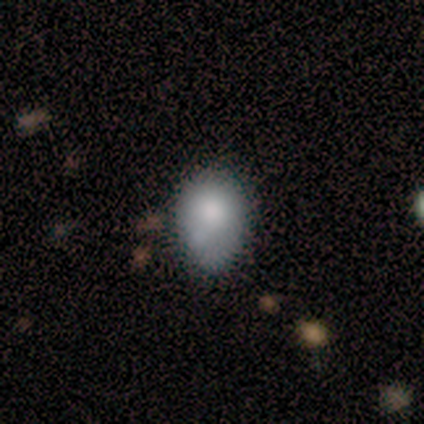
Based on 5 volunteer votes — Morphology: type=smooth (60%); roundness=in between (100%); merging=none (50%, tied with minor disturbance).